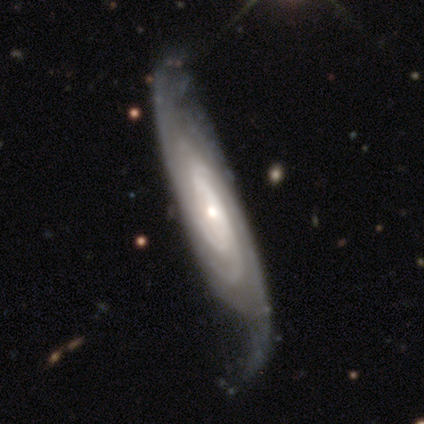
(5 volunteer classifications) Smooth or featured? featured or disk (80%)
Edge-on disk? no (100%)
Bar? no (100%)
Spiral arms? yes (75%)
Spiral winding? tight (100%)
Spiral arm count? 2 (33%, tied with 4 and can't tell)
Bulge size? small (75%)
Merging? minor disturbance (40%, tied with major disturbance)